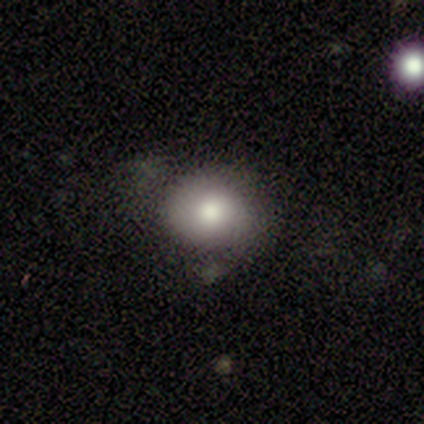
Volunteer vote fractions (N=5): Smooth or featured? 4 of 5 (80%) said smooth. How rounded? 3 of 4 (75%) said round. Merging? 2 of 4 (50%) said none.